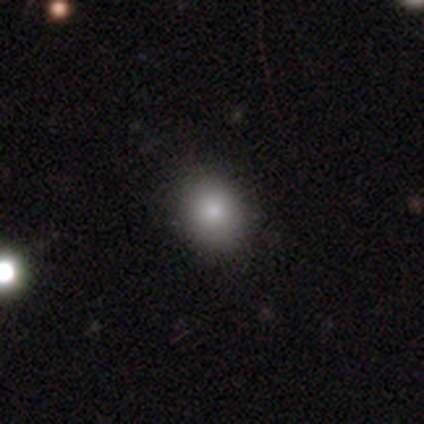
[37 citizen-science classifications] Morphology: type=smooth (84%); roundness=round (55%); merging=none (88%).